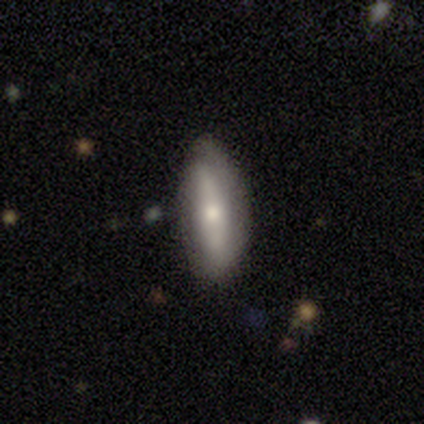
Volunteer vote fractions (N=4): Morphology: type=featured or disk (75%); edge-on=no (100%); bar=strong (33%, tied with weak and no); spiral arms=no (100%); bulge=small (100%); merging=none (50%, tied with minor disturbance).